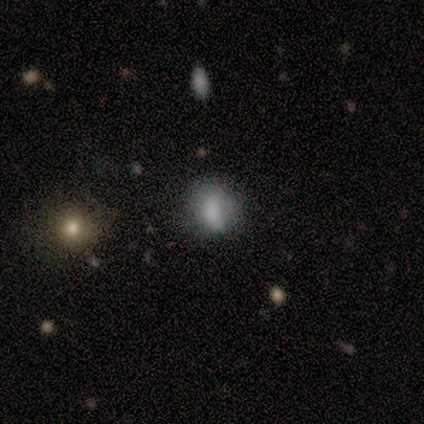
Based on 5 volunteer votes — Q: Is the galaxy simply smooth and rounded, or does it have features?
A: smooth — 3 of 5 (60%).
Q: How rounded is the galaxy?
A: in between — 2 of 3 (67%).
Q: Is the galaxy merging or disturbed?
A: none — 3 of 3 (100%).